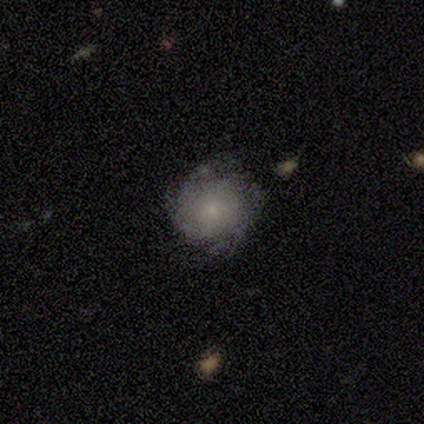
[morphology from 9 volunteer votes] Q: Smooth or featured?
A: featured or disk (56%); runner-up: smooth (44%)
Q: Edge-on disk?
A: no (100%)
Q: Bar?
A: no (80%); runner-up: weak (20%)
Q: Spiral arms?
A: yes (100%)
Q: Spiral winding?
A: tight (40%); tied with: medium (40%)
Q: Spiral arm count?
A: 2 (40%); runner-up: 3 (20%)
Q: Bulge size?
A: small (60%); runner-up: moderate (20%)
Q: Merging?
A: none (78%); runner-up: minor disturbance (22%)